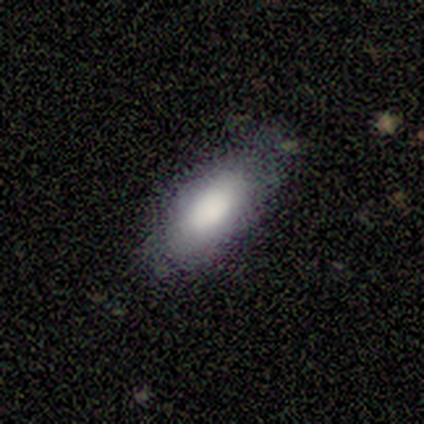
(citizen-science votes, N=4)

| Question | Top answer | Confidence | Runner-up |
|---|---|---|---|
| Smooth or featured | smooth | 100% | — |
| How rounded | in between | 100% | — |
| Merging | none | 100% | — |